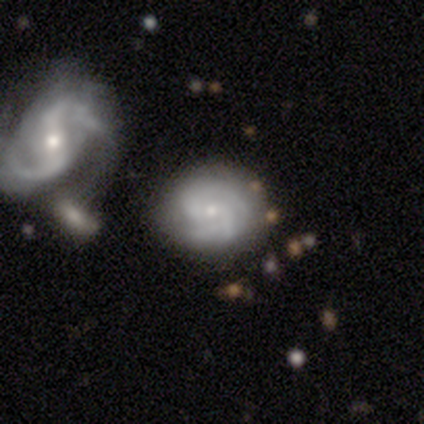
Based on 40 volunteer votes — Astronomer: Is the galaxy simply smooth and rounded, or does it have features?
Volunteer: featured or disk — 72%.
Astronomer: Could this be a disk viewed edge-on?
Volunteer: no — 97%.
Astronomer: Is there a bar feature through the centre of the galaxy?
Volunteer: no — 57% (runner-up: weak, 32%).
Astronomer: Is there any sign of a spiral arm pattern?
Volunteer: yes — 96%.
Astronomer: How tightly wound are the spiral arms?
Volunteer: tight — 78%.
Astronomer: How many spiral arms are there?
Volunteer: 2 — 59%.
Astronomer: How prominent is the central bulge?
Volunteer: small — 82%.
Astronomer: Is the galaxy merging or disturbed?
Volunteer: none — 63%.